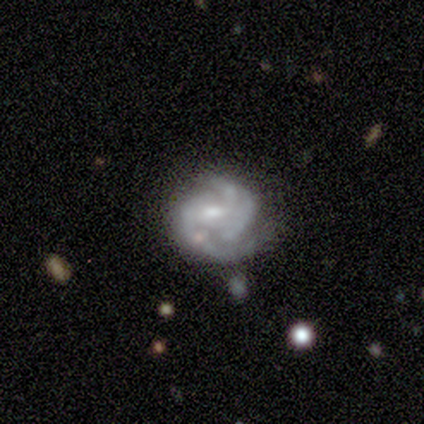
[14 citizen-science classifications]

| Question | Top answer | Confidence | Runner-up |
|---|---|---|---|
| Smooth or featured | featured or disk | 93% | star or artifact (7%) |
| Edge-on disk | no | 100% | — |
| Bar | weak | 54% | no (31%) |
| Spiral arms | yes | 100% | — |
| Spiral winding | tight | 54% | medium (31%) |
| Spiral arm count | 3 | 62% | 2 (23%) |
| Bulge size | moderate | 62% | small (23%) |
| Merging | minor disturbance | 54% | none (38%) |